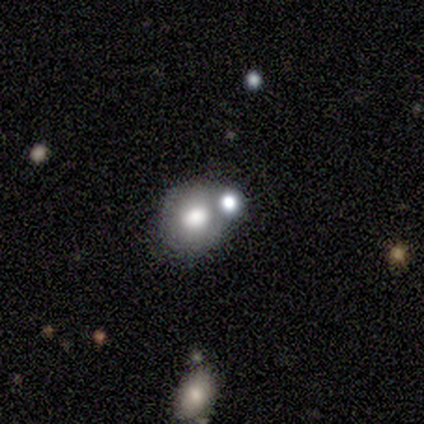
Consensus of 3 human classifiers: This is likely a smooth galaxy (67%). How rounded: clearly round (100%). Merging: possibly none (50%, tied with merger).